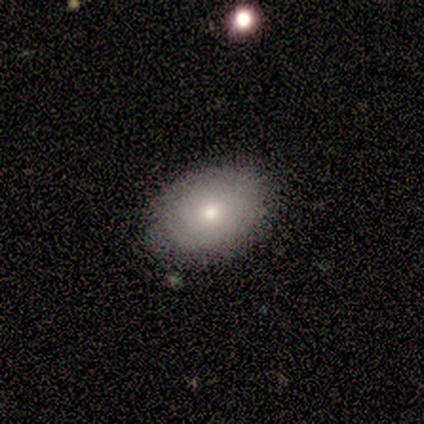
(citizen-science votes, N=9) Smooth or featured: smooth — 56% (featured or disk — 33%)
How rounded: in between — 100%
Merging: none — 75% (minor disturbance — 25%)